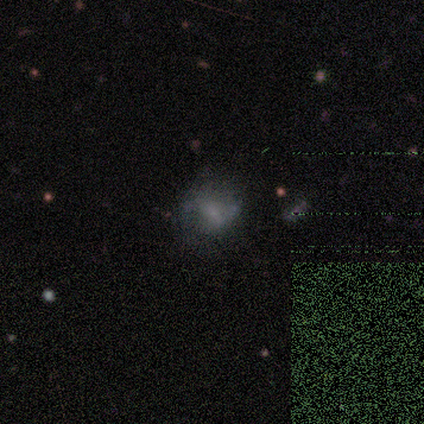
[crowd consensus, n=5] Overall: smooth (60%; featured or disk 20%). How rounded: in between (67%; round 33%). Merging: minor disturbance (50%; none 25%).